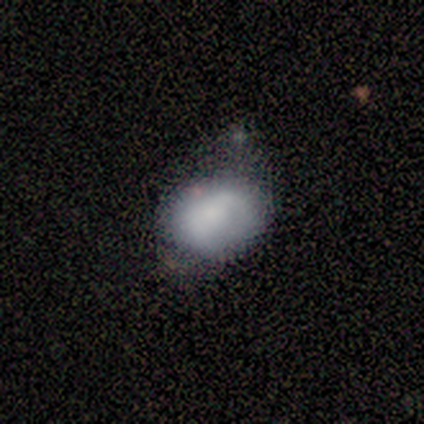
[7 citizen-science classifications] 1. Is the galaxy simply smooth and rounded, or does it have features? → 71% smooth, 29% featured or disk, 0% star or artifact.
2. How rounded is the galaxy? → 80% in between, 20% round, 0% cigar-shaped.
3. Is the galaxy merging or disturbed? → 43% none (tied), 43% minor disturbance (tied), 14% major disturbance, 0% merger.